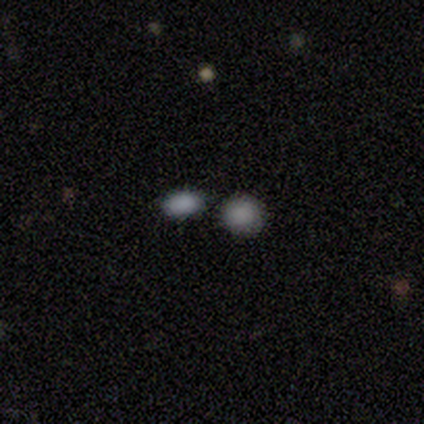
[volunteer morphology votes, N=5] This is likely a smooth galaxy (60%). How rounded: likely in between (67%). Merging: marginally none (33%, tied with minor disturbance and merger).